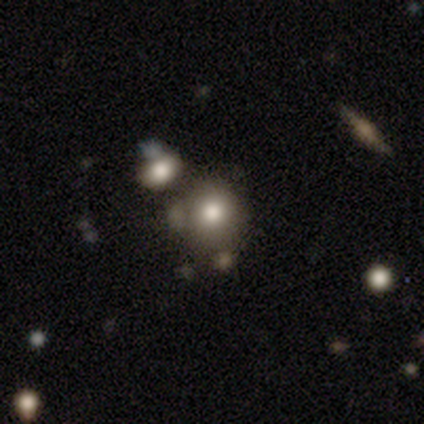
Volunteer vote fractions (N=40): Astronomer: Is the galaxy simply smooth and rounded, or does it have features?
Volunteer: smooth — 68%.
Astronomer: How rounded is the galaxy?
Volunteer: round — 81%.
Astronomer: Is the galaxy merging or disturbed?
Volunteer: none — 61%.